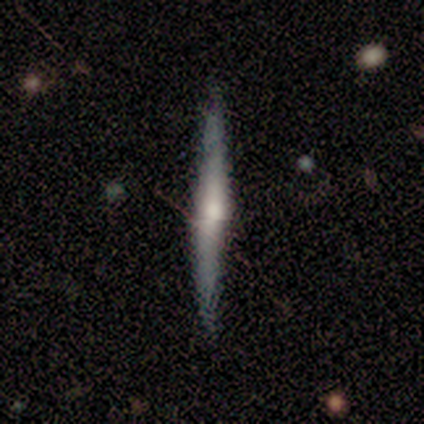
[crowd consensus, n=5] Q: Smooth or featured?
A: featured or disk (60%); runner-up: smooth (40%)
Q: Edge-on disk?
A: yes (100%)
Q: Edge-on bulge?
A: rounded (100%)
Q: Merging?
A: none (80%); runner-up: minor disturbance (20%)